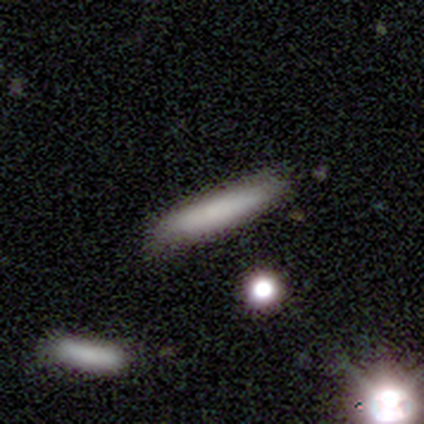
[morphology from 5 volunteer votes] smooth 80%, star or artifact 20%, featured or disk 0%. Down the decision tree: how rounded — cigar-shaped (100%); merging — none (100%).